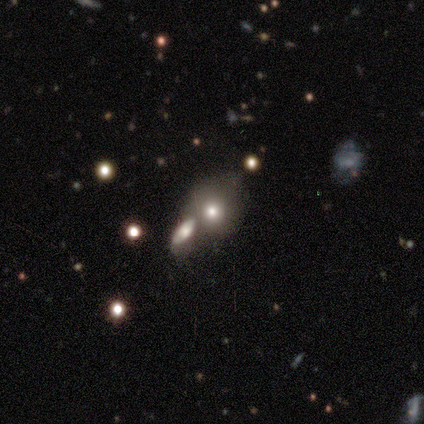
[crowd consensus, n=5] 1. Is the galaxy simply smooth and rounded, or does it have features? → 80% smooth, 20% star or artifact, 0% featured or disk.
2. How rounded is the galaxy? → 50% round (tied), 50% in between (tied), 0% cigar-shaped.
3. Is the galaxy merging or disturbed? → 50% merger, 25% none, 25% minor disturbance, 0% major disturbance.